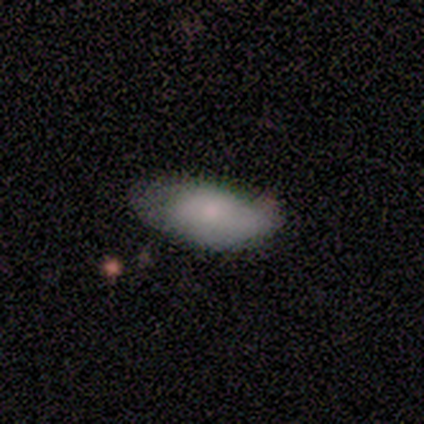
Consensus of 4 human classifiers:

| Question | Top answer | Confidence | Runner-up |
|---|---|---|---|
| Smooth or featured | smooth | 100% | — |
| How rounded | in between | 100% | — |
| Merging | none | 75% | minor disturbance (25%) |